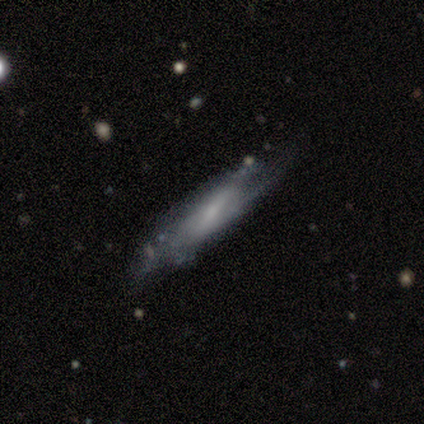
Smooth or featured? 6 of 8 (75%) said featured or disk. Edge-on disk? 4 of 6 (67%) said yes. Edge-on bulge? 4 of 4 (100%) said none. Merging? 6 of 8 (75%) said none.